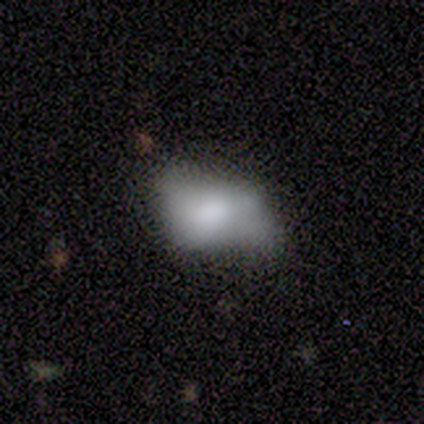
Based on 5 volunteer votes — A smooth galaxy with no disk features (60%) that is in between round and cigar-shaped (100%).

Vote fractions:
- Smooth or featured? smooth: 60% / featured or disk: 20% / star or artifact: 20%
- How rounded? in between: 100% / round: 0% / cigar-shaped: 0%
- Merging? minor disturbance: 75% / major disturbance: 25% / none: 0% / merger: 0%